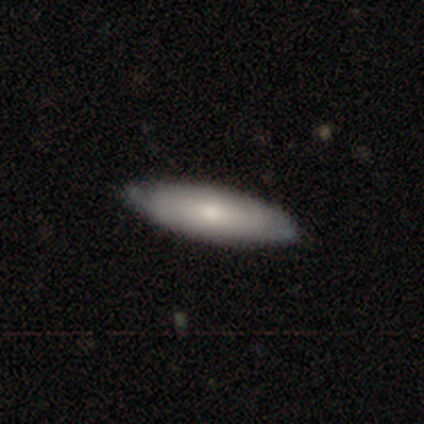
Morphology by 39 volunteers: Smooth or featured? smooth (67%)
How rounded? in between (54%)
Merging? none (76%)